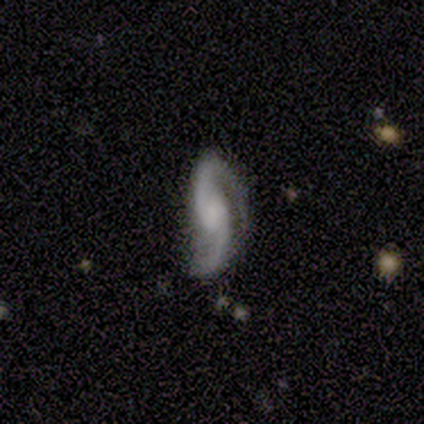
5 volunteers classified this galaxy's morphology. Volunteers were most divided on "spiral winding" (2-way tie): medium: 40%, loose: 40%, tight: 20%; "bulge size" (2-way tie): moderate: 40%, none: 40%, small: 20%, dominant: 0%, large: 0%. More confident: smooth or featured — featured or disk (100%); edge-on disk — no (100%); spiral arms — yes (100%); spiral arm count — 2 (100%); merging — none (80%); bar — no (60%).